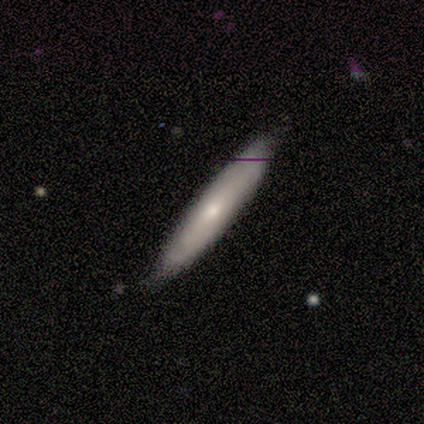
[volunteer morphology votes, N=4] smooth_or_featured: featured or disk (p=0.75) [alt: star or artifact p=0.25]
disk_edge_on: yes (p=1.00)
edge_on_bulge: rounded (p=1.00)
merging: none (p=1.00)